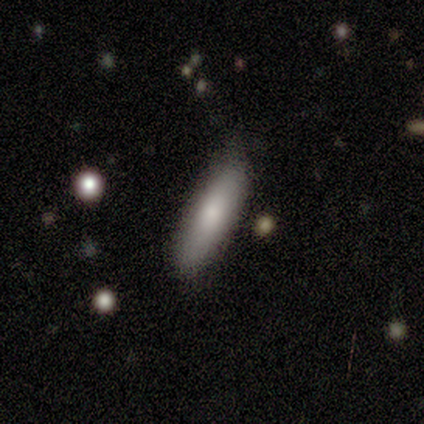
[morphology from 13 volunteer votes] type=smooth (85%); roundness=cigar-shaped (73%); merging=none (58%).